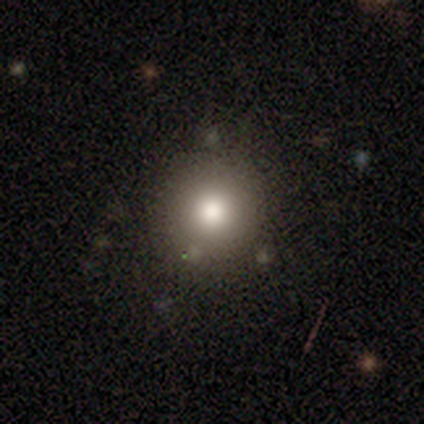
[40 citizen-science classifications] Volunteers were most divided on "smooth or featured": smooth: 75%, star or artifact: 18%, featured or disk: 8%. More confident: how rounded — round (97%); merging — none (88%).